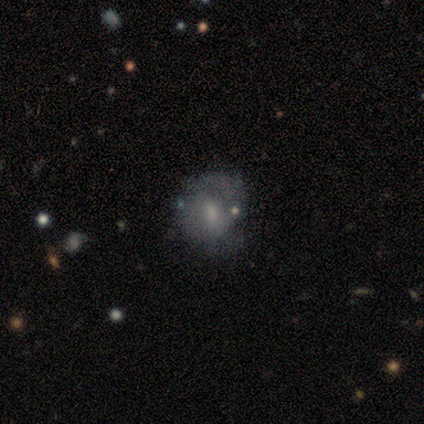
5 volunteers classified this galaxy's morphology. Smooth or featured?
  - featured or disk: 80% *
  - smooth: 20%
  - star or artifact: 0%
Edge-on disk?
  - no: 100% *
  - yes: 0%
Bar?
  - weak: 50% * (tied)
  - no: 50% * (tied)
  - strong: 0%
Spiral arms?
  - yes: 75% *
  - no: 25%
Spiral winding?
  - tight: 67% *
  - medium: 33%
  - loose: 0%
Spiral arm count?
  - 2: 67% *
  - can't tell: 33%
  - 1: 0%
  - 3: 0%
  - 4: 0%
  - more than 4: 0%
Bulge size?
  - small: 75% *
  - moderate: 25%
  - dominant: 0%
  - large: 0%
  - none: 0%
Merging?
  - none: 60% *
  - minor disturbance: 40%
  - major disturbance: 0%
  - merger: 0%